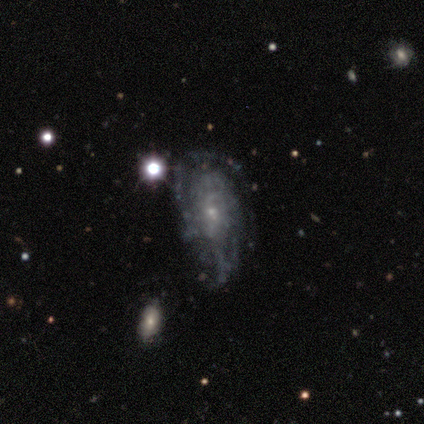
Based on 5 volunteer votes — Morphology: type=featured or disk (60%); edge-on=no (100%); bar=no (67%); spiral arms=no (67%); bulge=small (100%); merging=none (60%).